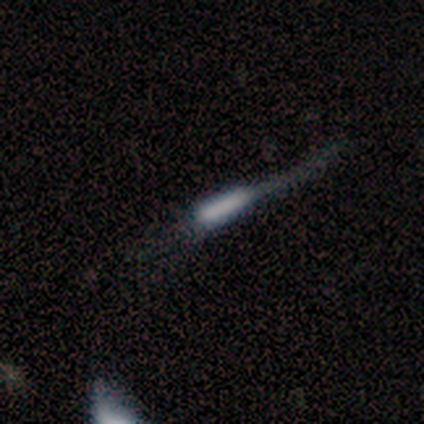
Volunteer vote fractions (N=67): A smooth galaxy with no disk features (43%) that is cigar-shaped (93%).

Vote fractions:
- Smooth or featured? smooth: 43% / featured or disk: 42% / star or artifact: 15%
- How rounded? cigar-shaped: 93% / in between: 7% / round: 0%
- Merging? major disturbance: 35% / none: 33% / minor disturbance: 26% / merger: 5%